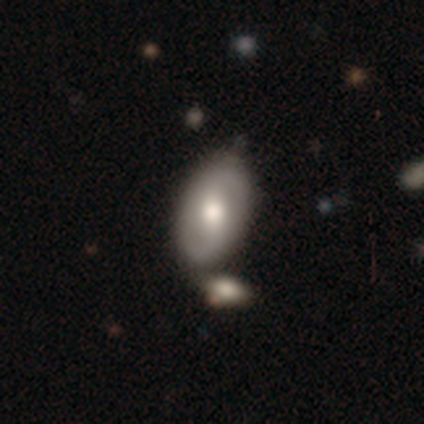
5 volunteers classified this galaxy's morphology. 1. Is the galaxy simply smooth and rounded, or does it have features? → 80% featured or disk, 20% smooth, 0% star or artifact.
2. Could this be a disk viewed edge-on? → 100% no, 0% yes.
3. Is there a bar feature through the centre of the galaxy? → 50% no, 25% strong, 25% weak.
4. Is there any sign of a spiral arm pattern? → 50% yes (tied), 50% no (tied).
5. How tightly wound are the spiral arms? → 100% medium, 0% tight, 0% loose.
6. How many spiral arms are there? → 100% 2, 0% 1, 0% 3, 0% 4, 0% more than 4, 0% can't tell.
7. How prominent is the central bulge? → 100% moderate, 0% dominant, 0% large, 0% small, 0% none.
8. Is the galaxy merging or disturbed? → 80% none, 20% minor disturbance, 0% major disturbance, 0% merger.